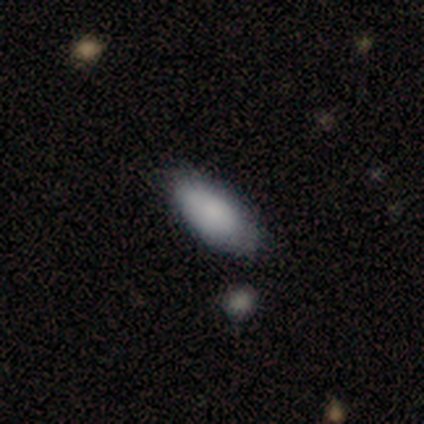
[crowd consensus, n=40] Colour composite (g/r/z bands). It shows a smooth galaxy with no disk features (88%) that is in between round and cigar-shaped (94%). Merging: none (77%).